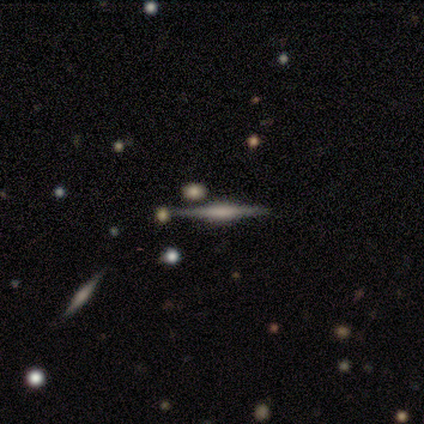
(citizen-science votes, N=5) This is likely a featured or disk galaxy (60%). It is clearly viewed edge-on (100%). Edge-on bulge: clearly boxy (100%). Merging: clearly none (100%).